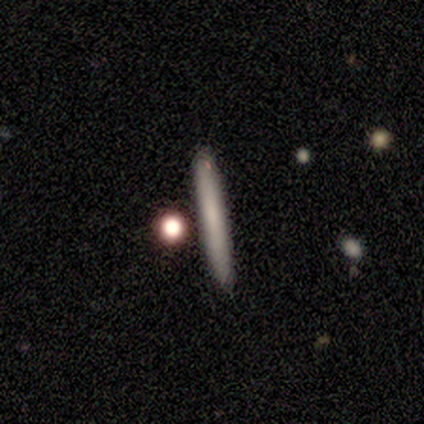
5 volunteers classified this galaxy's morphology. Overall: smooth (60%; featured or disk 40%). How rounded: cigar-shaped (100%). Merging: none (60%; minor disturbance 20%).